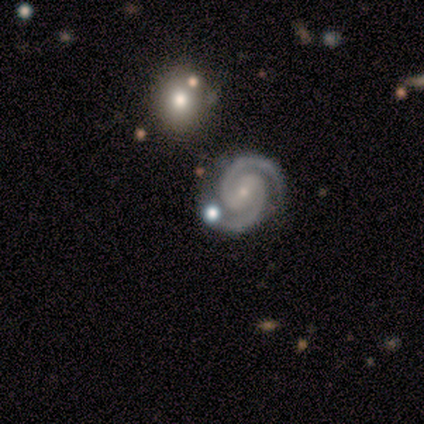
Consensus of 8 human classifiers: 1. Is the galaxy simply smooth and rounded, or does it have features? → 75% featured or disk, 12% smooth, 12% star or artifact.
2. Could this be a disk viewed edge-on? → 100% no, 0% yes.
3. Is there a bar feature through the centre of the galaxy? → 50% weak (tied), 50% no (tied), 0% strong.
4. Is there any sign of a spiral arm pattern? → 100% yes, 0% no.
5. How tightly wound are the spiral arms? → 67% tight, 33% medium, 0% loose.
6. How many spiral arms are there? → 100% 2, 0% 1, 0% 3, 0% 4, 0% more than 4, 0% can't tell.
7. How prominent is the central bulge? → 83% small, 17% moderate, 0% dominant, 0% large, 0% none.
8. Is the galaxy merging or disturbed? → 86% none, 14% merger, 0% minor disturbance, 0% major disturbance.